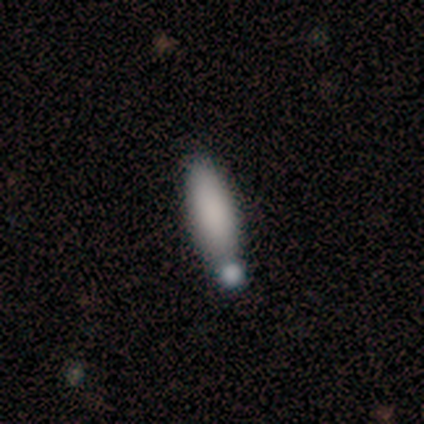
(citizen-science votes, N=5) A smooth galaxy with no disk features (80%) that is in between round and cigar-shaped (100%).

Vote fractions:
- Smooth or featured? smooth: 80% / featured or disk: 20% / star or artifact: 0%
- How rounded? in between: 100% / round: 0% / cigar-shaped: 0%
- Merging? minor disturbance: 60% / merger: 40% / none: 0% / major disturbance: 0%